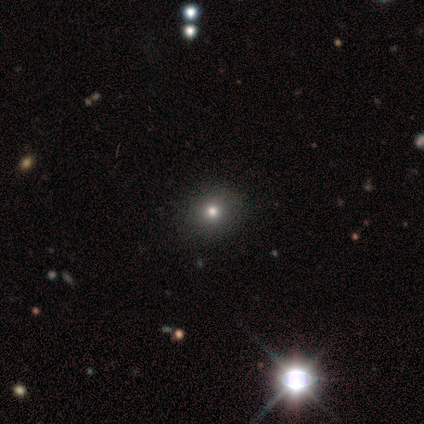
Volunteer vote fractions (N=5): smooth-or-featured: smooth: 80% | star or artifact: 20% | featured or disk: 0%
  how-rounded: round: 75% | in between: 25% | cigar-shaped: 0%
  merging: none: 100% | minor disturbance: 0% | major disturbance: 0% | merger: 0%